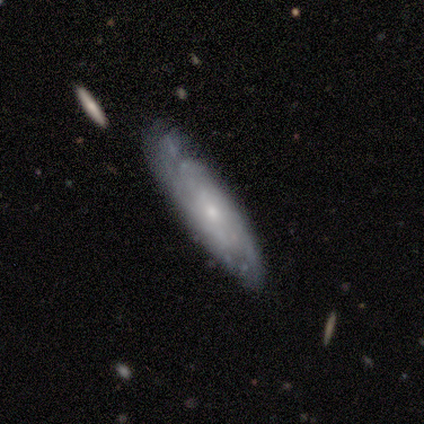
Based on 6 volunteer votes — Overall: smooth (50%, tied with featured or disk). How rounded: in between (67%; cigar-shaped 33%). Merging: none (67%; minor disturbance 33%).